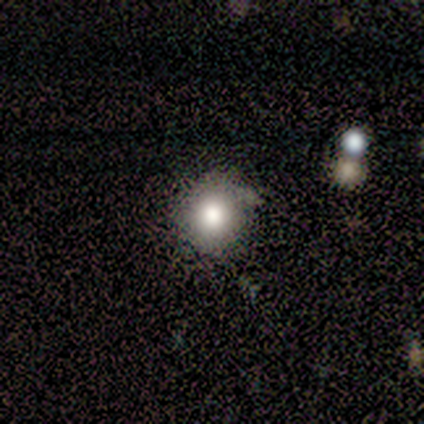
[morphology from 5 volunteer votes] smooth_or_featured: smooth (p=1.00)
how_rounded: round (p=0.80) [alt: in between p=0.20]
merging: none (p=0.60) [alt: minor disturbance p=0.40]